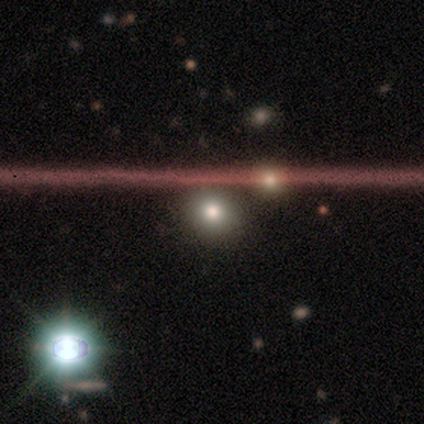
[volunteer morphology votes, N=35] smooth 51%, star or artifact 29%, featured or disk 20%. Down the decision tree: how rounded — round (72%); merging — none (88%).